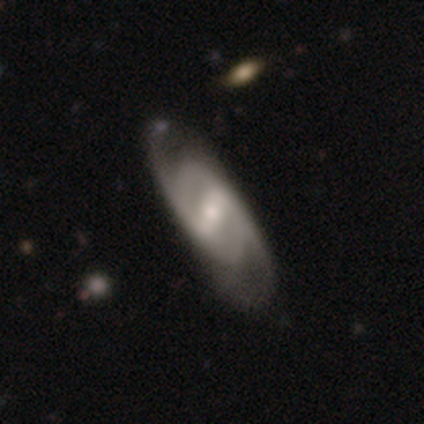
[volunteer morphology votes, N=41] A featured or disk galaxy (80%) with a strong bar (59%), 2 (86%) medium (64%) spiral arms (88%) and a moderate central bulge (47%). Merging: none (62%).